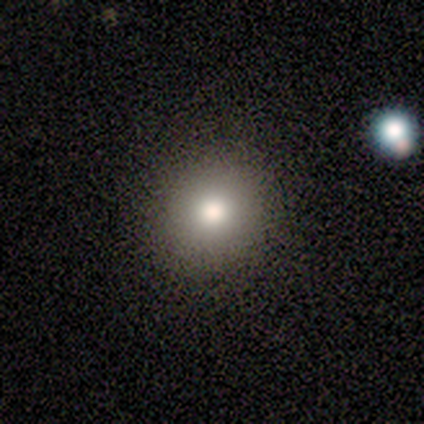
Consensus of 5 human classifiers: smooth 100%, featured or disk 0%, star or artifact 0%. Down the decision tree: how rounded — round (100%); merging — none (100%).